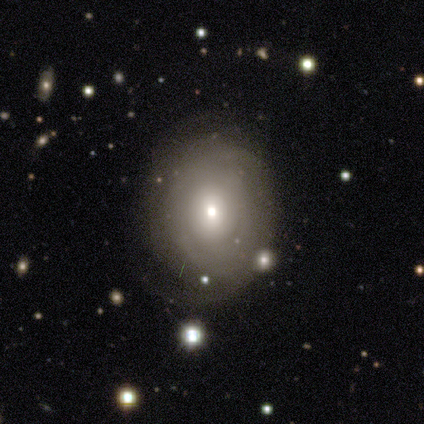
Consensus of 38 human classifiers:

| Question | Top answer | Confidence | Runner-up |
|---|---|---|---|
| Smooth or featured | featured or disk | 58% | smooth (32%) |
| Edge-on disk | no | 100% | — |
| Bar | no | 91% | weak (9%) |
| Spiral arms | yes | 68% | no (32%) |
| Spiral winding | tight | 80% | medium (20%) |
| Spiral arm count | can't tell | 60% | 1 (13%) |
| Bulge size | small | 45% | moderate (36%) |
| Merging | none | 68% | minor disturbance (18%) |